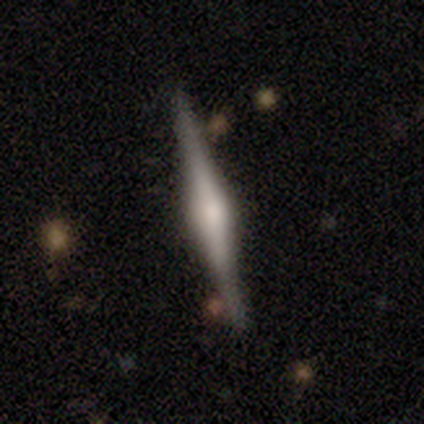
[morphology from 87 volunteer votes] Smooth or featured? 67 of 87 (77%) said featured or disk. Edge-on disk? 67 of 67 (100%) said yes. Edge-on bulge? 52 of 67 (78%) said rounded. Merging? 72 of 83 (87%) said none.